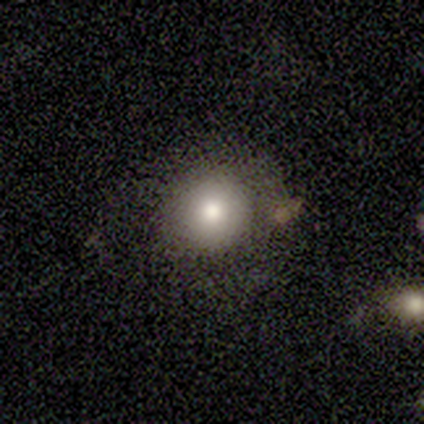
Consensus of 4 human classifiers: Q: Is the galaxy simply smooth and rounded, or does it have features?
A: smooth — 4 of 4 (100%).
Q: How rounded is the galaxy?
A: round — 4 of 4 (100%).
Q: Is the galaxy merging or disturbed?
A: none — 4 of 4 (100%).